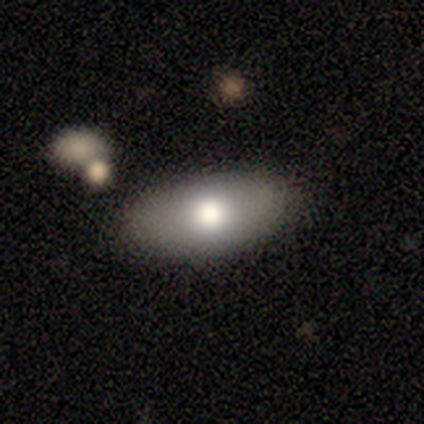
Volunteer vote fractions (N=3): Smooth or featured? 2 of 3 (67%) said smooth. How rounded? 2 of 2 (100%) said in between. Merging? 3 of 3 (100%) said none.